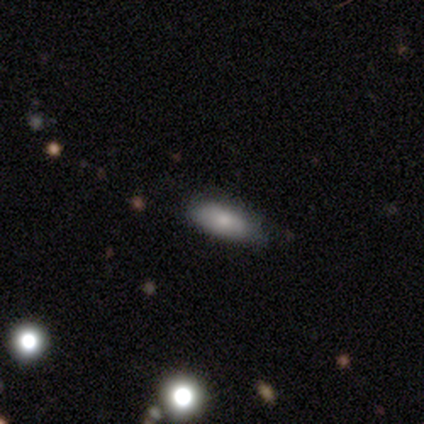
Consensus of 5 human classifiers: This appears to be a smooth galaxy with no disk features (100%) that is in between round and cigar-shaped (60%). Merging: minor disturbance (60%).